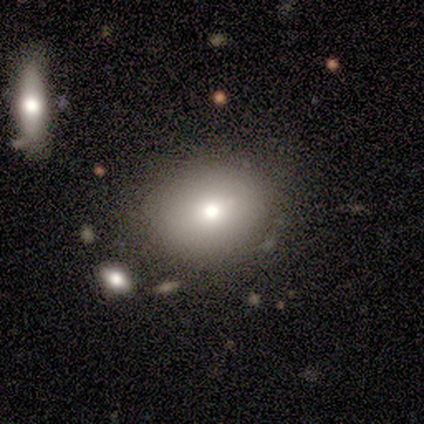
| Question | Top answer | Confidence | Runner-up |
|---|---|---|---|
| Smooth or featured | smooth | 100% | — |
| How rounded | in between | 100% | — |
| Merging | none | 100% | — |